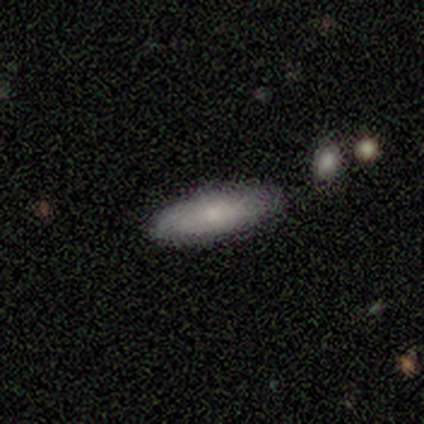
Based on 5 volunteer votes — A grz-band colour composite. It shows a smooth galaxy with no disk features (100%) that is in between round and cigar-shaped (60%). Merging: none (100%).